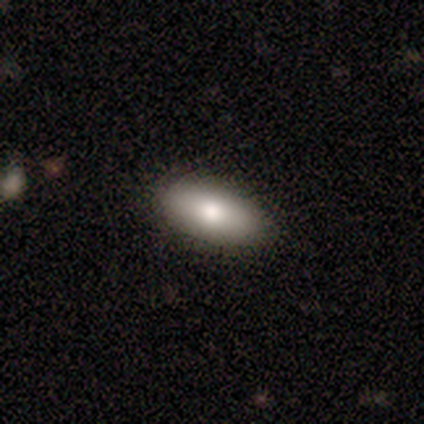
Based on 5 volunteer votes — Morphology: type=smooth (80%); roundness=in between (100%); merging=none (60%).